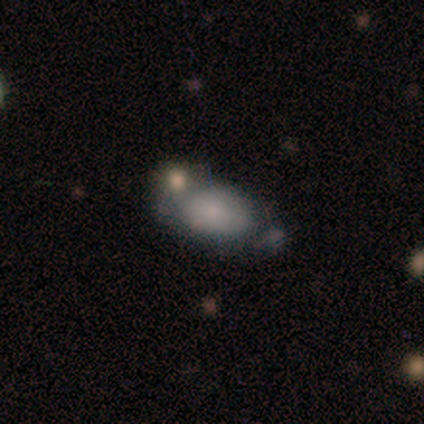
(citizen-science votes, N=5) Smooth or featured? 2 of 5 (40%, tied with featured or disk) said smooth. How rounded? 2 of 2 (100%) said in between. Merging? 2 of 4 (50%) said none.